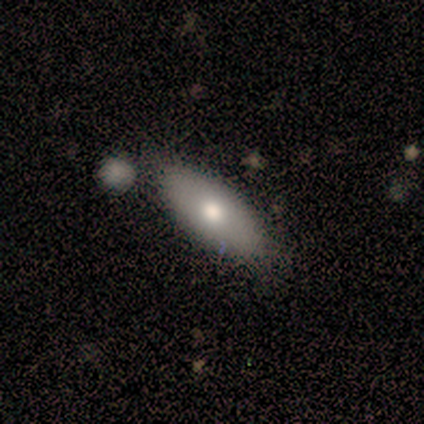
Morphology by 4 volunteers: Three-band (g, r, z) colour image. It shows a featured or disk galaxy (75%) with no bar (100%), no spiral arms (100%) and a moderate central bulge (100%). Merging: none (100%).